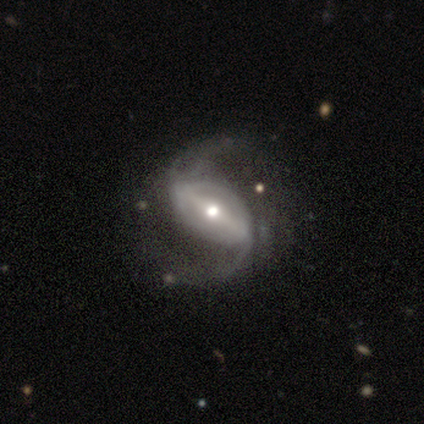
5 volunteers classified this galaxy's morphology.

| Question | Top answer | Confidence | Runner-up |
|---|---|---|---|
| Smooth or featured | featured or disk | 80% | star or artifact (20%) |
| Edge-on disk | no | 100% | — |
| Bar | strong | 75% | weak (25%) |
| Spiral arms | yes | 100% | — |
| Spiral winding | loose | 75% | medium (25%) |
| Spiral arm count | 2 | 100% | — |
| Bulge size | moderate | 75% | dominant (25%) |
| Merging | minor disturbance | 75% | none (25%) |